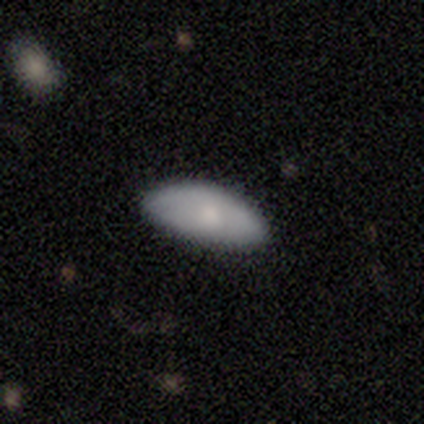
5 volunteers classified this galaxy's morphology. smooth 60%, featured or disk 20%, star or artifact 20%. Down the decision tree: how rounded — in between (100%); merging — none (75%).